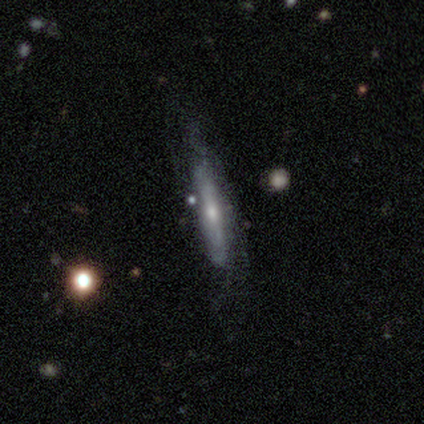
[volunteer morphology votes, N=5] Smooth or featured? smooth (60%)
How rounded? cigar-shaped (100%)
Merging? none (40%, tied with major disturbance)